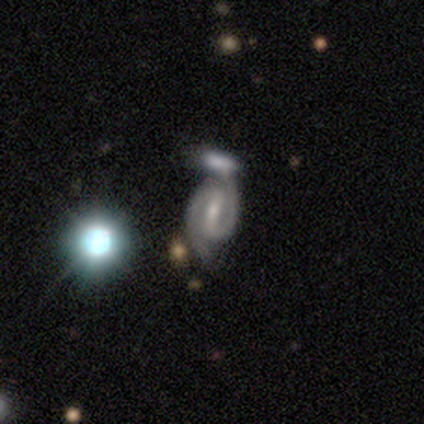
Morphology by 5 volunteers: Smooth or featured?
  - featured or disk: 80% *
  - smooth: 20%
  - star or artifact: 0%
Edge-on disk?
  - no: 100% *
  - yes: 0%
Bar?
  - strong: 100% *
  - weak: 0%
  - no: 0%
Spiral arms?
  - yes: 100% *
  - no: 0%
Spiral winding?
  - medium: 75% *
  - tight: 25%
  - loose: 0%
Spiral arm count?
  - 2: 100% *
  - 1: 0%
  - 3: 0%
  - 4: 0%
  - more than 4: 0%
  - can't tell: 0%
Bulge size?
  - small: 75% *
  - moderate: 25%
  - dominant: 0%
  - large: 0%
  - none: 0%
Merging?
  - merger: 80% *
  - none: 20%
  - minor disturbance: 0%
  - major disturbance: 0%